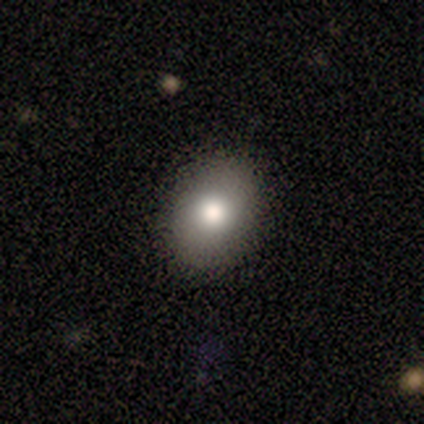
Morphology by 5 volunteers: smooth-or-featured: smooth: 60% | featured or disk: 20% | star or artifact: 20%
  how-rounded: round: 67% | in between: 33% | cigar-shaped: 0%
  merging: none: 75% | merger: 25% | minor disturbance: 0% | major disturbance: 0%